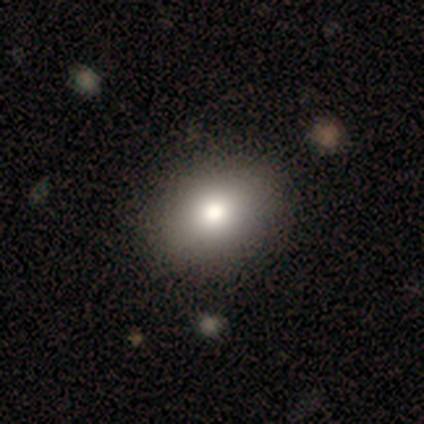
smooth_or_featured: smooth (p=0.60) [alt: featured or disk p=0.40]
how_rounded: in between (p=0.67) [alt: round p=0.33]
merging: none (p=0.80) [alt: minor disturbance p=0.20]